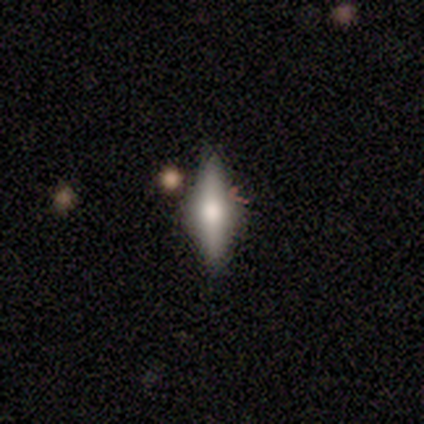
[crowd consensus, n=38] Morphology: type=featured or disk (47%); edge-on=yes (89%); edge-on bulge=rounded (81%); merging=none (68%).